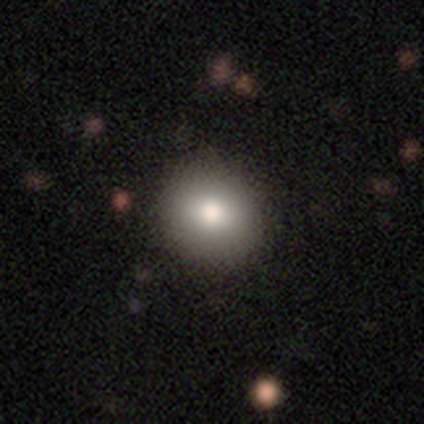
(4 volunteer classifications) This is likely a smooth galaxy (75%). How rounded: clearly round (100%). Merging: likely none (75%).